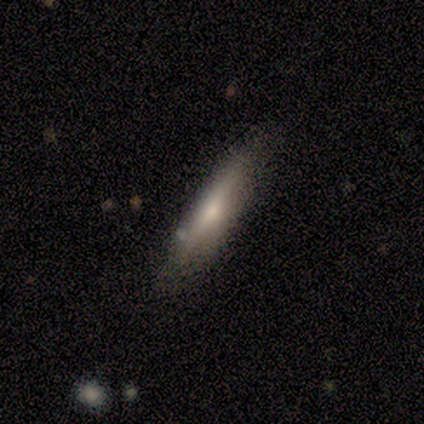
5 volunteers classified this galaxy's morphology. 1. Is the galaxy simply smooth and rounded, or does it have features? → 100% smooth, 0% featured or disk, 0% star or artifact.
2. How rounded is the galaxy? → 100% cigar-shaped, 0% round, 0% in between.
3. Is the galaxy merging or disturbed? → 100% none, 0% minor disturbance, 0% major disturbance, 0% merger.